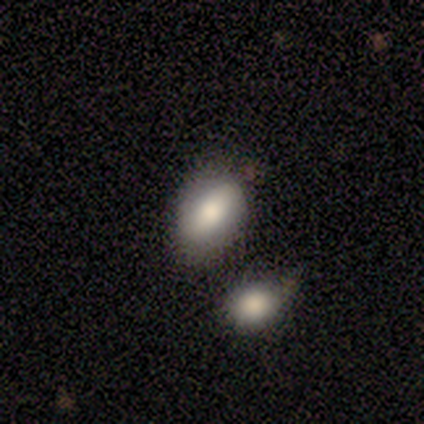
This is clearly a smooth galaxy (80%). How rounded: clearly in between (100%). Merging: clearly none (80%).